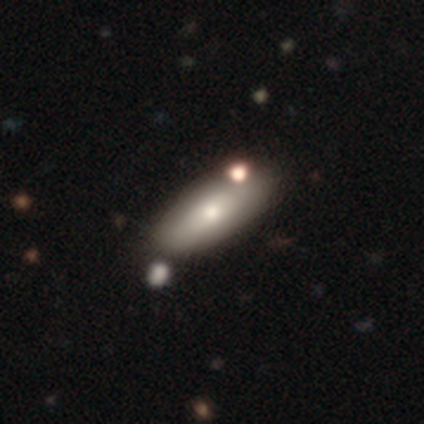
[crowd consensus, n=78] Smooth or featured?
  - smooth: 79% *
  - featured or disk: 18%
  - star or artifact: 3%
How rounded?
  - in between: 77% *
  - cigar-shaped: 23%
  - round: 0%
Merging?
  - none: 45% *
  - merger: 13%
  - minor disturbance: 5%
  - major disturbance: 0%